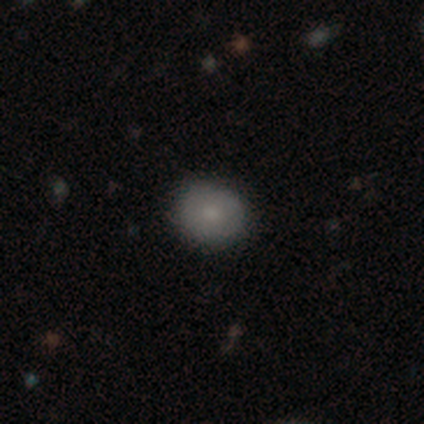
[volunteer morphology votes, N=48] smooth-or-featured: smooth: 67% | featured or disk: 29% | star or artifact: 4%
  how-rounded: round: 84% | in between: 16% | cigar-shaped: 0%
  merging: none: 85% | minor disturbance: 11% | major disturbance: 4% | merger: 0%